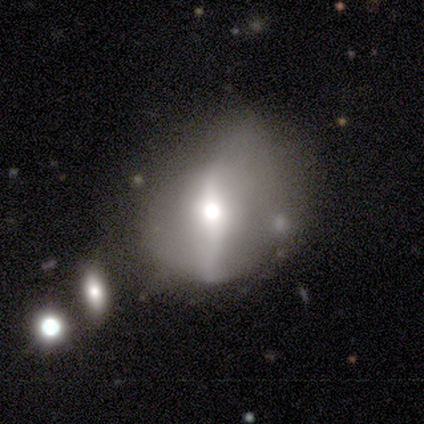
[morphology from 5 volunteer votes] This appears to be a smooth galaxy with no disk features (40%, tied with featured or disk) that is round (100%). Merging: minor disturbance (50%).